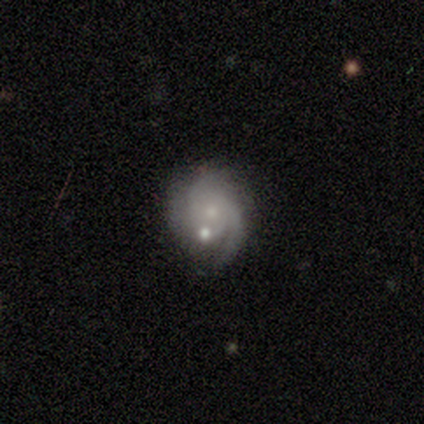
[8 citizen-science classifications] Smooth or featured: featured or disk — 100%
Edge-on disk: no — 100%
Bar: no — 88% (weak — 12%)
Spiral arms: yes — 100%
Spiral winding: tight — 62% (medium — 25%)
Spiral arm count: can't tell — 50% (2 — 25%)
Bulge size: small — 88% (none — 12%)
Merging: none — 75% (minor disturbance — 12%)